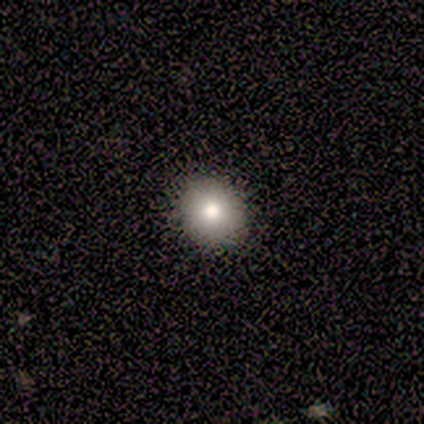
A smooth galaxy with no disk features (80%) that is round (100%). Merging: none (75%).